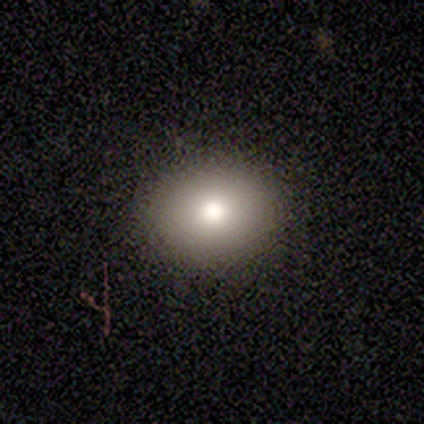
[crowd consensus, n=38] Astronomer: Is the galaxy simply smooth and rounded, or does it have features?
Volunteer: smooth — 82%.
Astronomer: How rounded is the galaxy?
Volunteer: in between — 55% (runner-up: round, 42%).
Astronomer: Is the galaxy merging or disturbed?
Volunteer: none — 83%.